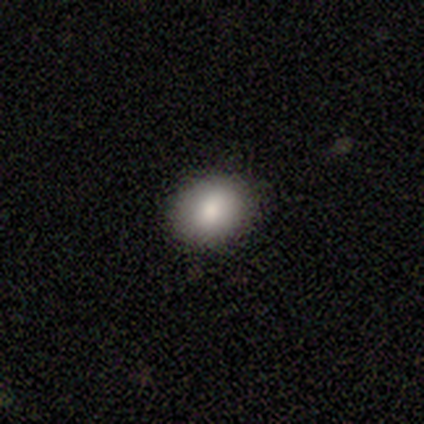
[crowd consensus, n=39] smooth 85%, featured or disk 13%, star or artifact 3%. Down the decision tree: how rounded — round (52%); merging — none (95%).